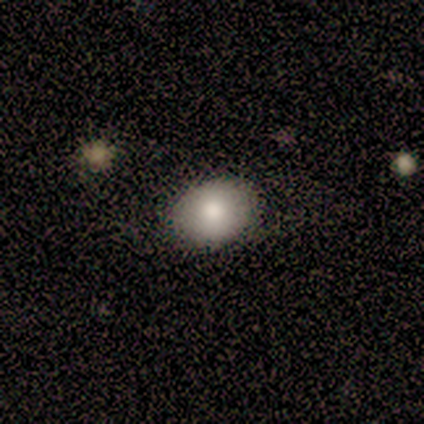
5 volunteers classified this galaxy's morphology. Smooth or featured: smooth — 100%
How rounded: in between — 60% (round — 40%)
Merging: none — 100%